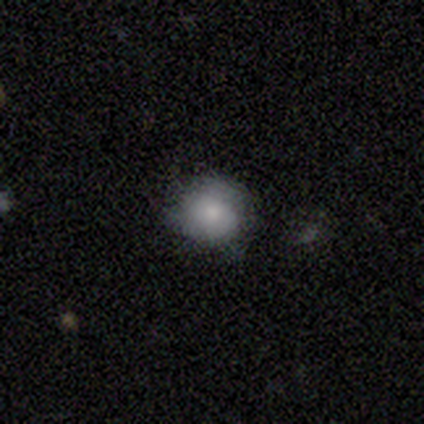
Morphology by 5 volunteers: smooth-or-featured: smooth: 80% | featured or disk: 20% | star or artifact: 0%
  how-rounded: round: 100% | in between: 0% | cigar-shaped: 0%
  merging: none: 60% | minor disturbance: 40% | major disturbance: 0% | merger: 0%